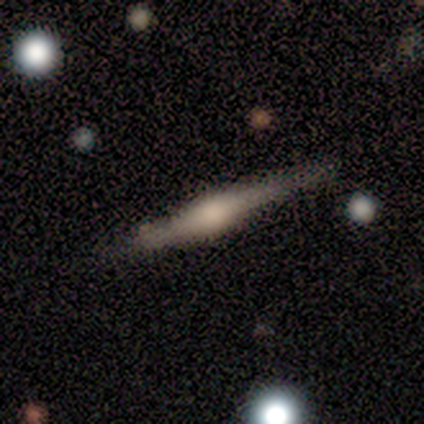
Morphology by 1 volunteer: Smooth or featured? featured or disk (100%)
Edge-on disk? yes (100%)
Edge-on bulge? rounded (100%)
Merging? none (100%)